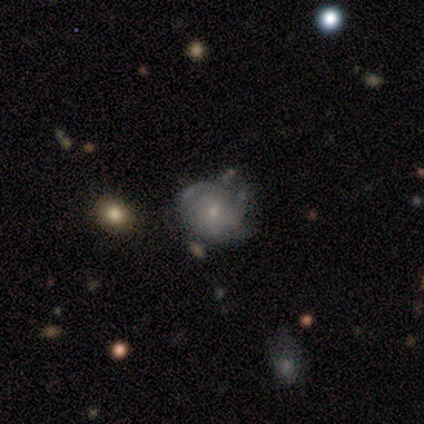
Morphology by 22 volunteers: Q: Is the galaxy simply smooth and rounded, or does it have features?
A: featured or disk — 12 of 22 (55%).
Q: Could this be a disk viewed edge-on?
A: no — 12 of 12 (100%).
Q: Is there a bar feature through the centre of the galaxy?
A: no — 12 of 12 (100%).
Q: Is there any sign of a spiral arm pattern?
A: yes — 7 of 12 (58%).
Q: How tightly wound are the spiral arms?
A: tight — 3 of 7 (43%, tied with medium).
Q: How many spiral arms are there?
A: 2 — 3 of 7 (43%, tied with can't tell).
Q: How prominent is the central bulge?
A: small — 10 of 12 (83%).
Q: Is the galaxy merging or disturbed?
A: none — 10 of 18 (56%).